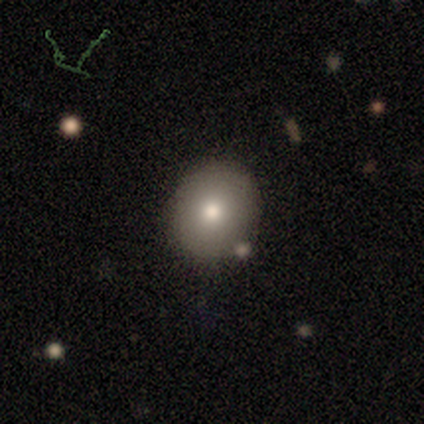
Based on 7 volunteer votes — Q: Smooth or featured?
A: smooth (86%); runner-up: featured or disk (14%)
Q: How rounded?
A: round (83%); runner-up: in between (17%)
Q: Merging?
A: none (100%)